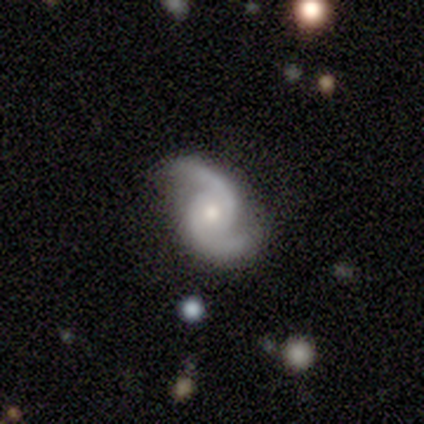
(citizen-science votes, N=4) This appears to be a featured or disk galaxy (100%) with no bar (100%), 2 (100%) medium (75%) spiral arms (100%) and a moderate central bulge (50%, tied with small). Merging: none (100%).